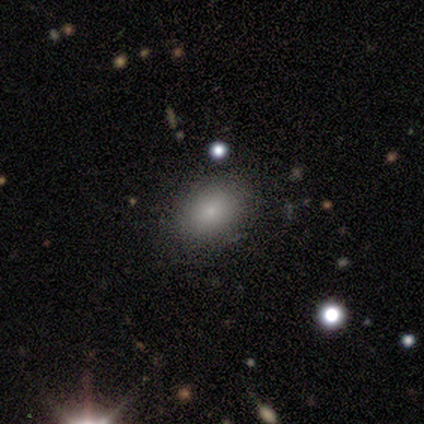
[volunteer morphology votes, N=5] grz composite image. It shows a smooth galaxy with no disk features (80%) that is in between round and cigar-shaped (100%). Merging: none (100%).